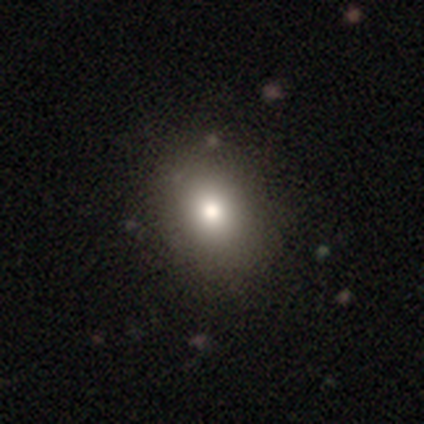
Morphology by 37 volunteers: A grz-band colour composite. It shows a smooth galaxy with no disk features (84%) that is round (55%). Merging: none (71%).